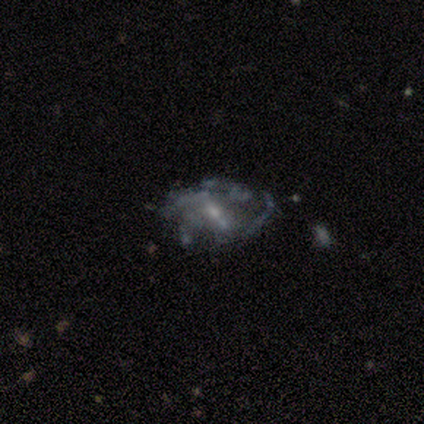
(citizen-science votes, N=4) This appears to be a smooth galaxy with no disk features (50%) that is in between round and cigar-shaped (100%). Merging: none (67%).